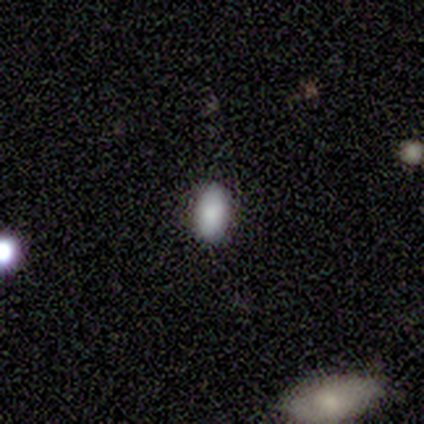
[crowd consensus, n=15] Morphology: type=smooth (87%); roundness=in between (85%); merging=none (92%).